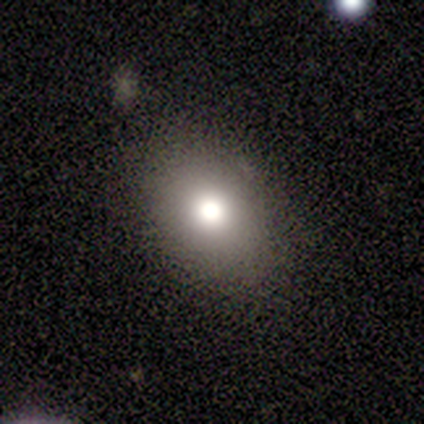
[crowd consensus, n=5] smooth-or-featured: smooth: 80% | star or artifact: 20% | featured or disk: 0%
  how-rounded: in between: 75% | round: 25% | cigar-shaped: 0%
  merging: none: 75% | merger: 25% | minor disturbance: 0% | major disturbance: 0%